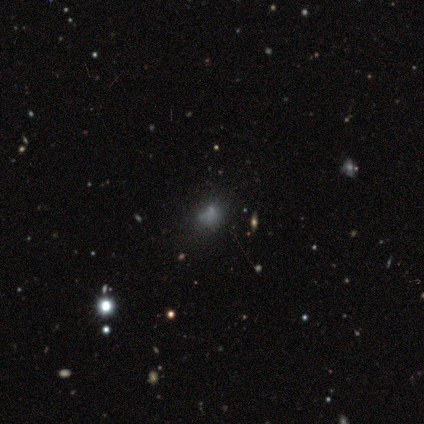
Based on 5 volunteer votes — smooth 80%, featured or disk 20%, star or artifact 0%. Down the decision tree: how rounded — round (75%); merging — none (40%, tied with minor disturbance).